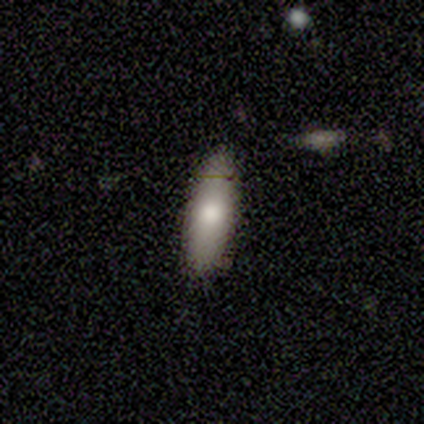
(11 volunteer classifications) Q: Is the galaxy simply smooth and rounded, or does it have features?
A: smooth — 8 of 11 (73%).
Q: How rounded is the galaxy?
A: in between — 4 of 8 (50%, tied with cigar-shaped).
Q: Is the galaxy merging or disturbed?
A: none — 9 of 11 (82%).